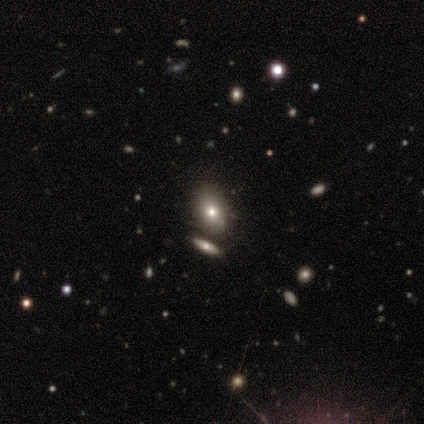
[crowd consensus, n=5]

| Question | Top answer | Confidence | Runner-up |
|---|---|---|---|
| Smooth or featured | smooth | 100% | — |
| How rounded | in between | 80% | round (20%) |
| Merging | none | 80% | major disturbance (20%) |